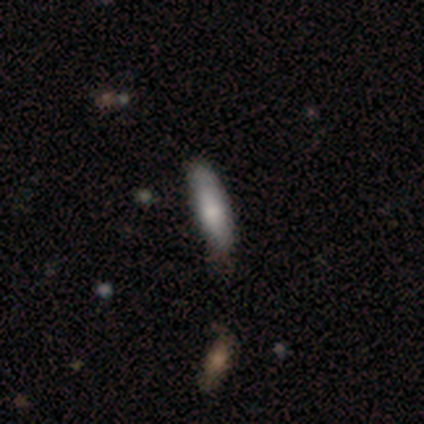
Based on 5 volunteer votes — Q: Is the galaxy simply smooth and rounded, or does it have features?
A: smooth — 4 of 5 (80%).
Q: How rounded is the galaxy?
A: cigar-shaped — 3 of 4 (75%).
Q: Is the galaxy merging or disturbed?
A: none — 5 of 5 (100%).